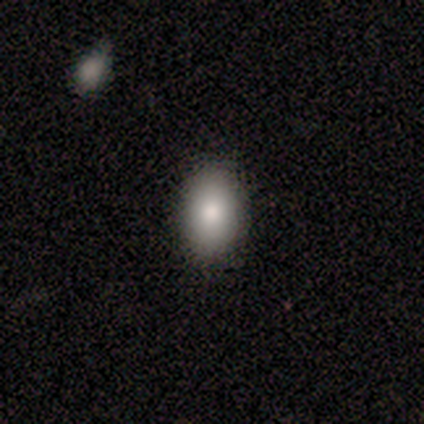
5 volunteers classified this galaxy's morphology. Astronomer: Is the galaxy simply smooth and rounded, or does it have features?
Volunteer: smooth — 100%.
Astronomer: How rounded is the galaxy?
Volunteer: in between — 60% (runner-up: round, 40%).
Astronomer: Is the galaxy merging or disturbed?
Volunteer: none — 100%.